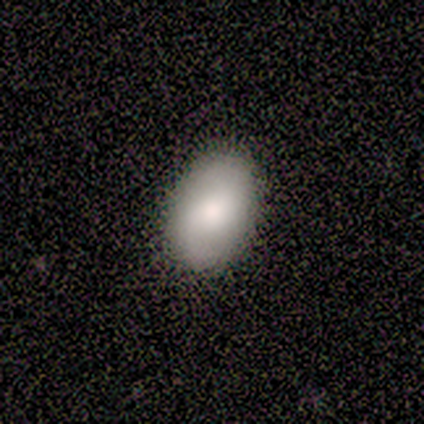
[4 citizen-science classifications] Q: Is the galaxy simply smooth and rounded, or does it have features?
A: smooth — 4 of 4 (100%).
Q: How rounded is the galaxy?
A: in between — 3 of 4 (75%).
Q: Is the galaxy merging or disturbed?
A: none — 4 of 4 (100%).